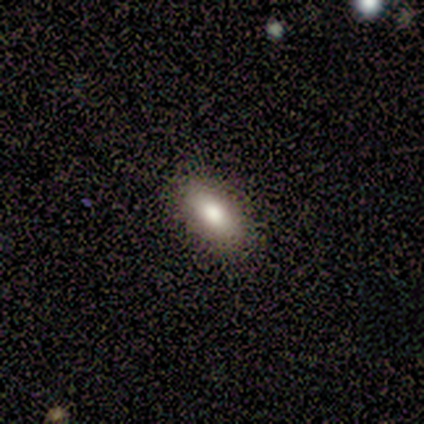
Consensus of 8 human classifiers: A smooth galaxy with no disk features (75%) that is in between round and cigar-shaped (100%).

Vote fractions:
- Smooth or featured? smooth: 75% / featured or disk: 12% / star or artifact: 12%
- How rounded? in between: 100% / round: 0% / cigar-shaped: 0%
- Merging? none: 100% / minor disturbance: 0% / major disturbance: 0% / merger: 0%